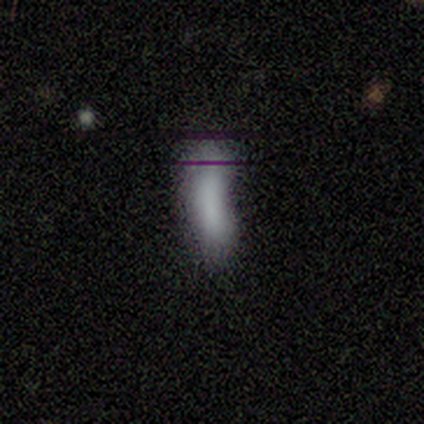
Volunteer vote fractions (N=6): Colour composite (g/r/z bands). It shows a smooth galaxy with no disk features (83%) that is cigar-shaped (60%). Merging: minor disturbance (40%).